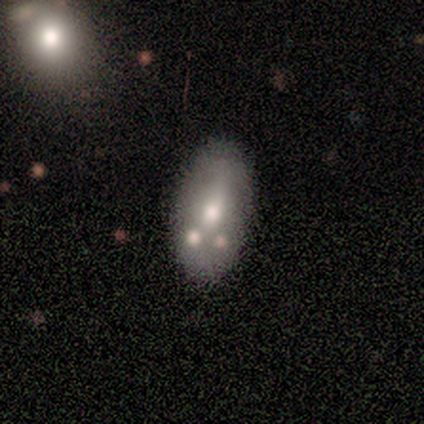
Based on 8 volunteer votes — Smooth or featured?
  - smooth: 50% * (tied)
  - featured or disk: 50% * (tied)
  - star or artifact: 0%
How rounded?
  - in between: 75% *
  - cigar-shaped: 25%
  - round: 0%
Merging?
  - none: 50% *
  - merger: 38%
  - minor disturbance: 12%
  - major disturbance: 0%